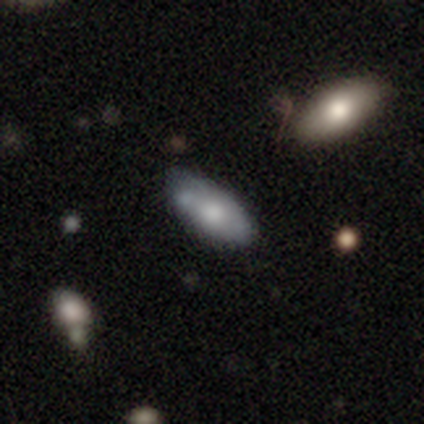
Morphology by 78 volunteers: smooth_or_featured: smooth (p=0.72) [alt: featured or disk p=0.19]
how_rounded: in between (p=0.88) [alt: cigar-shaped p=0.12]
merging: none (p=0.32) [alt: minor disturbance p=0.18]